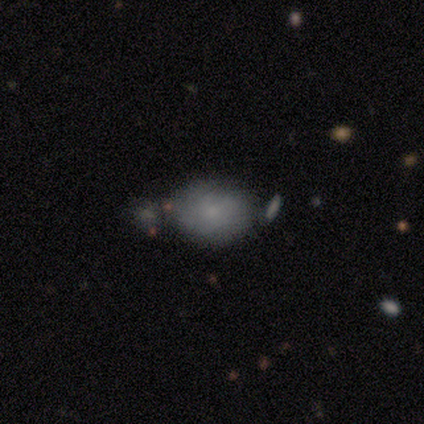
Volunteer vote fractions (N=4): This is likely a smooth galaxy (75%). How rounded: clearly in between (100%). Merging: clearly none (100%).